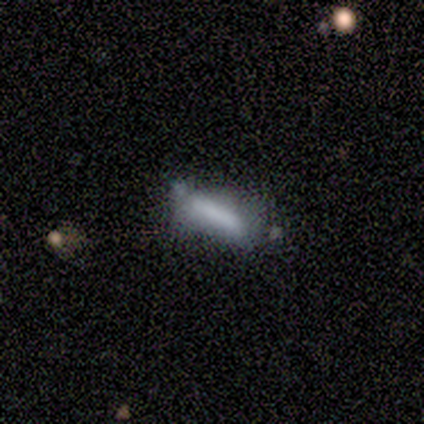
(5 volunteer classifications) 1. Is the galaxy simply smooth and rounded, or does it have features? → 80% smooth, 20% featured or disk, 0% star or artifact.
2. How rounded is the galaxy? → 75% cigar-shaped, 25% in between, 0% round.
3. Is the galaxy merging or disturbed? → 60% none, 40% minor disturbance, 0% major disturbance, 0% merger.